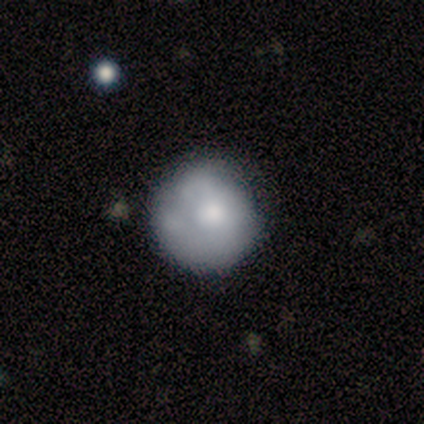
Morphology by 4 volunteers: A smooth galaxy with no disk features (50%, tied with featured or disk) that is round (100%).

Vote fractions:
- Smooth or featured? smooth: 50% (tied) / featured or disk: 50% (tied) / star or artifact: 0%
- How rounded? round: 100% / in between: 0% / cigar-shaped: 0%
- Merging? none: 75% / minor disturbance: 25% / major disturbance: 0% / merger: 0%